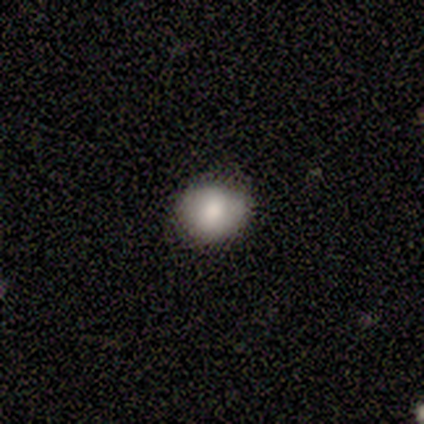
A smooth galaxy with no disk features (100%) that is round (80%). Merging: none (100%).